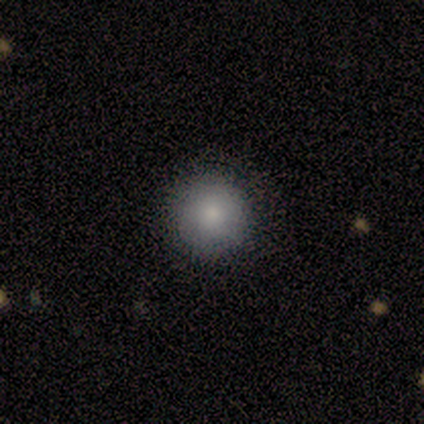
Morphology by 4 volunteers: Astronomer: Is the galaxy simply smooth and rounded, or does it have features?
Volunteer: smooth — 100%.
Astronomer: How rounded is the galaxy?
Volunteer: round — 100%.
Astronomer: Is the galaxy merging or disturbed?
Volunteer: none — 100%.